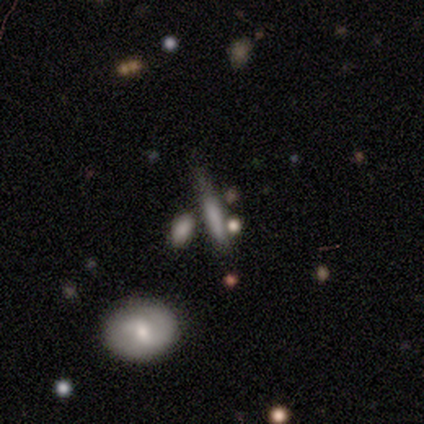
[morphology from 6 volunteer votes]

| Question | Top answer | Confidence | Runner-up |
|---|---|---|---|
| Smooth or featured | smooth | 67% | featured or disk (33%) |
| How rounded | cigar-shaped | 100% | — |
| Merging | minor disturbance | 50% | none (33%) |